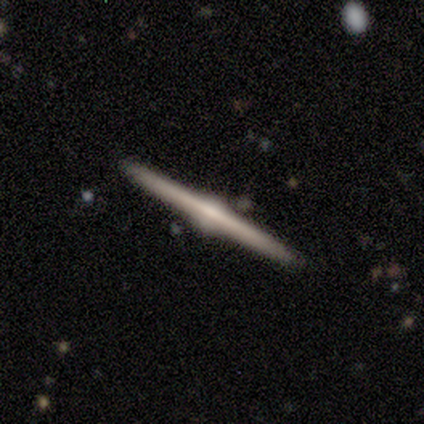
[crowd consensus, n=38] Q: Smooth or featured?
A: featured or disk (82%); runner-up: star or artifact (11%)
Q: Edge-on disk?
A: yes (100%)
Q: Edge-on bulge?
A: rounded (84%); runner-up: none (10%)
Q: Merging?
A: none (97%); runner-up: merger (3%)